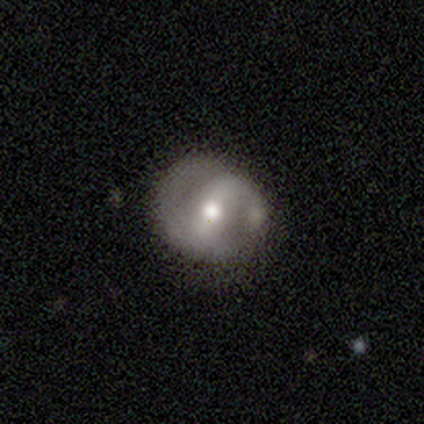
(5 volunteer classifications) Overall: featured or disk (60%; smooth 40%). Edge-on disk: no (67%; yes 33%). Bar: strong (100%). Spiral arms: yes (50%, tied with no). Spiral arm count: 2 (100%). Spiral winding: tight (100%). Bulge size: moderate (50%, tied with small). Merging: minor disturbance (60%; none 40%).